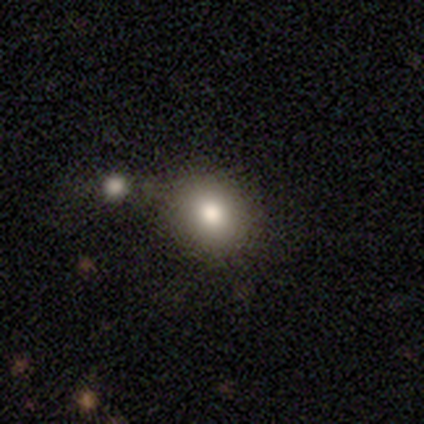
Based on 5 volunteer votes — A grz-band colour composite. It shows a smooth galaxy with no disk features (60%) that is round (100%). Merging: none (100%).